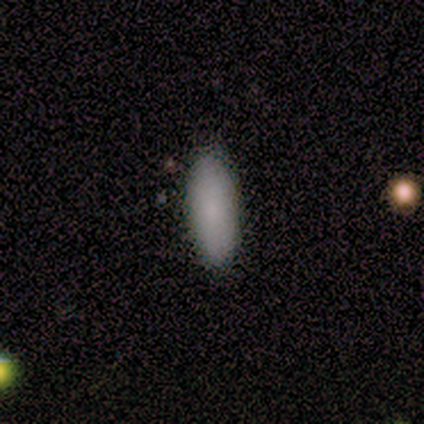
smooth 80%, featured or disk 20%, star or artifact 0%. Down the decision tree: how rounded — in between (50%, tied with cigar-shaped); merging — none (60%).